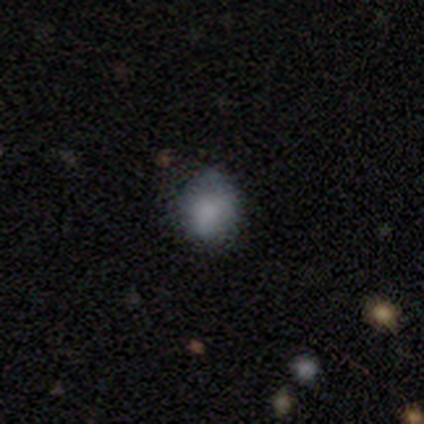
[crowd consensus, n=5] Smooth or featured? 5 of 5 (100%) said smooth. How rounded? 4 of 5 (80%) said round. Merging? 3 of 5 (60%) said none.